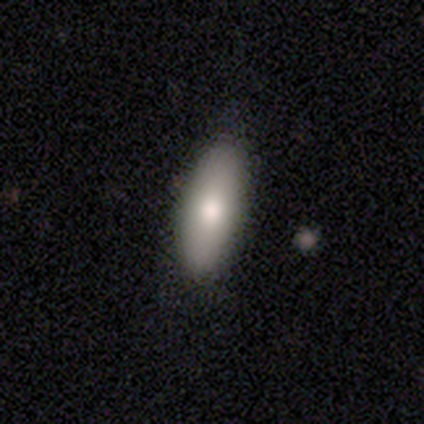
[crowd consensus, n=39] Overall: smooth (82%). How rounded: in between (69%; cigar-shaped 31%). Merging: none (82%).